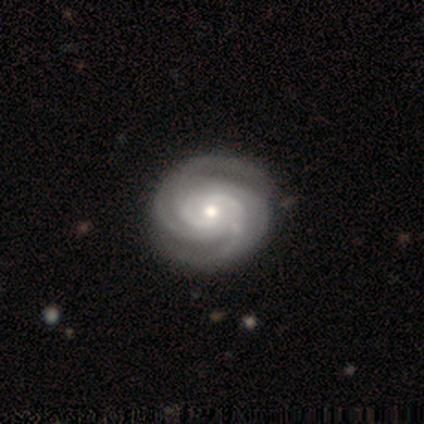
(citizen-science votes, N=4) Smooth or featured? 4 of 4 (100%) said featured or disk. Edge-on disk? 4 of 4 (100%) said no. Bar? 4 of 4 (100%) said no. Spiral arms? 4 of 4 (100%) said yes. Spiral winding? 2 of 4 (50%) said tight. Spiral arm count? 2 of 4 (50%, tied with can't tell) said 4. Bulge size? 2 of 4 (50%, tied with small) said moderate. Merging? 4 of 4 (100%) said none.